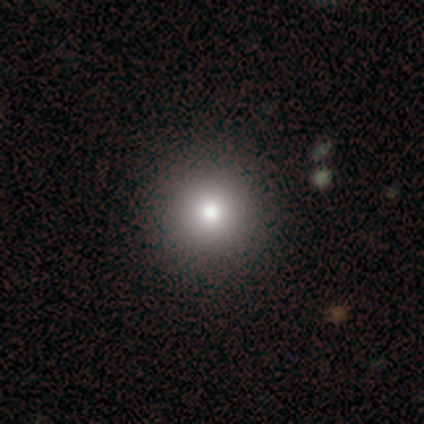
Smooth or featured? smooth (80%)
How rounded? round (75%)
Merging? none (75%)